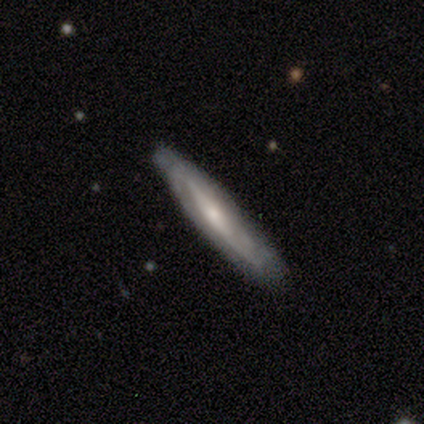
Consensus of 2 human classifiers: Smooth or featured?
  - smooth: 50% * (tied)
  - featured or disk: 50% * (tied)
  - star or artifact: 0%
How rounded?
  - cigar-shaped: 100% *
  - round: 0%
  - in between: 0%
Merging?
  - none: 50% * (tied)
  - minor disturbance: 50% * (tied)
  - major disturbance: 0%
  - merger: 0%